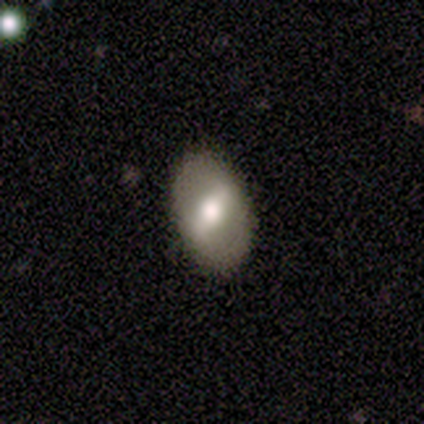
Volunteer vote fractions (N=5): Smooth or featured: smooth — 80% (star or artifact — 20%)
How rounded: in between — 75% (round — 25%)
Merging: none — 100%